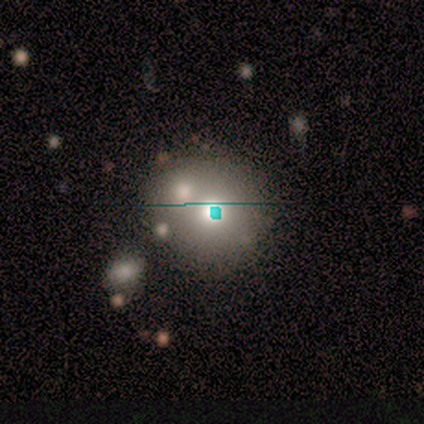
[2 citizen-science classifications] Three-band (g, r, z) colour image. It shows a smooth galaxy with no disk features (50%, tied with star or artifact) that is round (100%). Merging: none (100%).